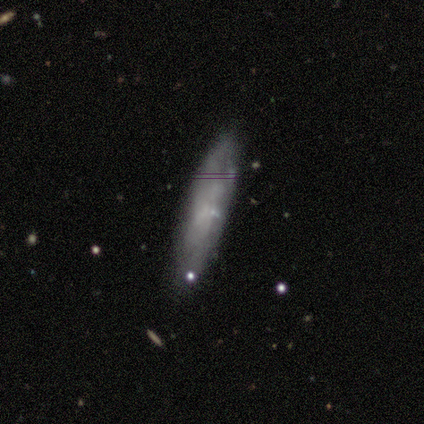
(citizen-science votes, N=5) Q: Smooth or featured?
A: smooth (60%); runner-up: featured or disk (40%)
Q: How rounded?
A: cigar-shaped (100%)
Q: Merging?
A: none (100%)